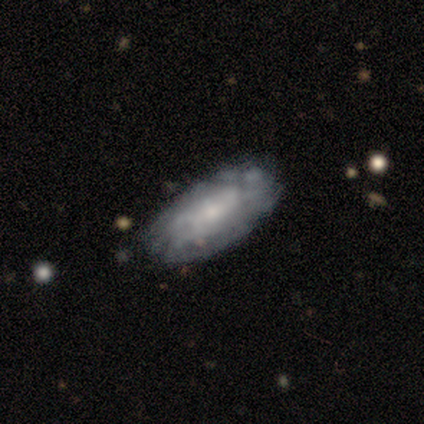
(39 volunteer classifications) Morphology: type=featured or disk (62%); edge-on=no (100%); bar=no (79%); spiral arms=yes (50%, tied with no); winding=tight (58%); arm count=can't tell (83%); bulge=small (62%); merging=none (74%).